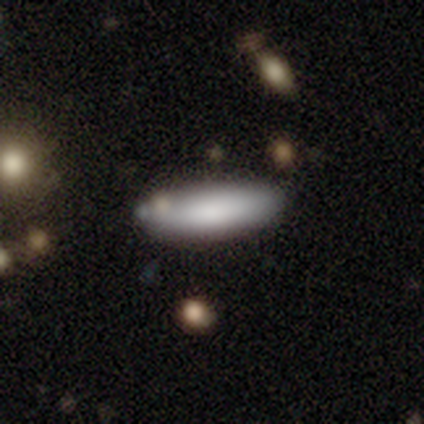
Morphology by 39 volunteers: Smooth or featured? 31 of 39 (79%) said smooth. How rounded? 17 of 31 (55%) said in between. Merging? 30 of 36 (83%) said none.